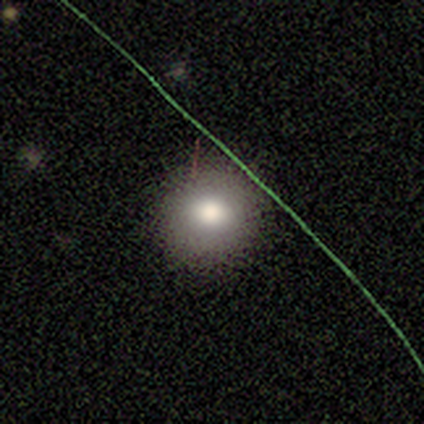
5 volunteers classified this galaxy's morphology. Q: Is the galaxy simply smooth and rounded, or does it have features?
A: smooth — 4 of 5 (80%).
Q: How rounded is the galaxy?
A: round — 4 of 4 (100%).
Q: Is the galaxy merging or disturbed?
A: none — 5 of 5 (100%).